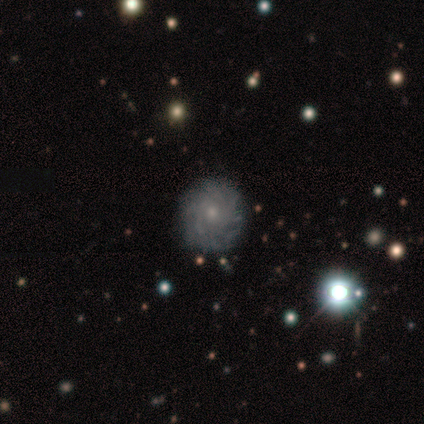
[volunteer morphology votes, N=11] smooth_or_featured: featured or disk (p=0.82) [alt: smooth p=0.09]
disk_edge_on: no (p=1.00)
bar: no (p=0.89) [alt: weak p=0.11]
has_spiral_arms: yes (p=1.00)
spiral_winding: tight (p=0.67) [alt: medium p=0.33]
spiral_arm_count: more than 4 (p=0.44) [tied with: can't tell p=0.44]
bulge_size: small (p=0.56) [alt: moderate p=0.44]
merging: none (p=0.80) [alt: minor disturbance p=0.20]